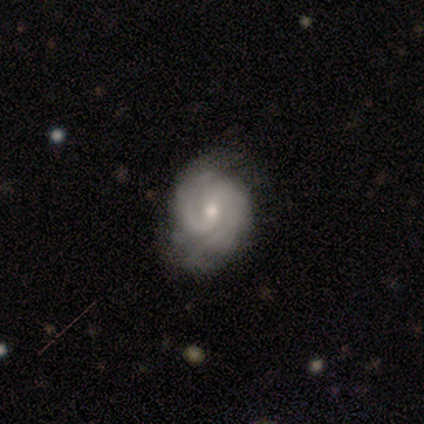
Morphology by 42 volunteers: Smooth or featured? 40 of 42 (95%) said featured or disk. Edge-on disk? 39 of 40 (98%) said no. Bar? 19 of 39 (49%) said no. Spiral arms? 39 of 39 (100%) said yes. Spiral winding? 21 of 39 (54%) said tight. Spiral arm count? 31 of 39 (79%) said 2. Bulge size? 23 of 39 (59%) said moderate. Merging? 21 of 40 (52%) said none.